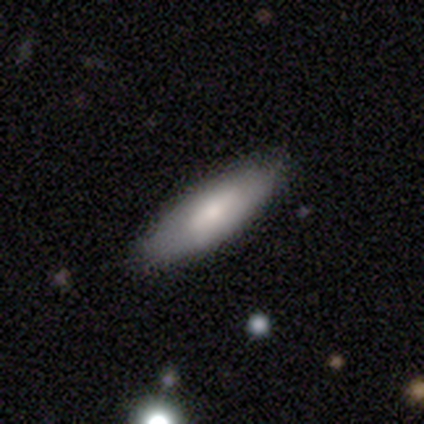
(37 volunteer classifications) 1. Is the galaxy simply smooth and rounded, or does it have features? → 59% smooth, 41% featured or disk, 0% star or artifact.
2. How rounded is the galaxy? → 55% cigar-shaped, 45% in between, 0% round.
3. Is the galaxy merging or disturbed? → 89% none, 8% minor disturbance, 3% major disturbance, 0% merger.